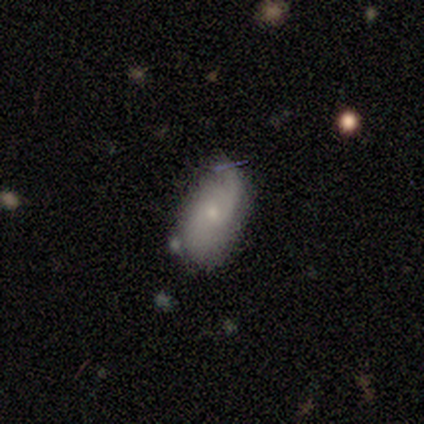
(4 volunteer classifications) Smooth or featured? featured or disk (100%)
Edge-on disk? no (100%)
Bar? no (75%)
Spiral arms? yes (100%)
Spiral winding? medium (50%, tied with loose)
Spiral arm count? 2 (75%)
Bulge size? small (100%)
Merging? none (75%)